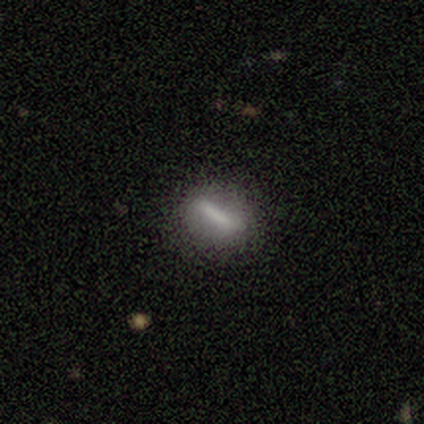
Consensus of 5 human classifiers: Smooth or featured?
  - smooth: 60% *
  - featured or disk: 20%
  - star or artifact: 20%
How rounded?
  - cigar-shaped: 67% *
  - round: 33%
  - in between: 0%
Merging?
  - none: 100% *
  - minor disturbance: 0%
  - major disturbance: 0%
  - merger: 0%